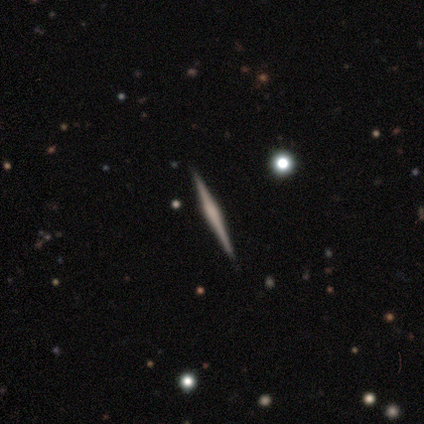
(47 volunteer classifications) Volunteers were most divided on "edge-on bulge": rounded: 46%, boxy: 31%, none: 23%. More confident: edge-on disk — yes (97%); merging — none (91%); smooth or featured — featured or disk (77%).